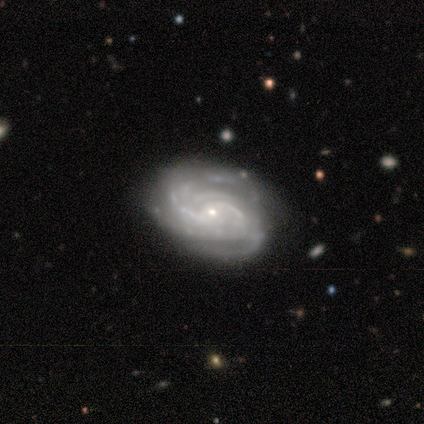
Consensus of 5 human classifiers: smooth-or-featured: featured or disk: 100% | smooth: 0% | star or artifact: 0%
  disk-edge-on: no: 100% | yes: 0%
    bar: no: 80% | weak: 20% | strong: 0%
    has-spiral-arms: yes: 100% | no: 0%
      spiral-winding: tight: 80% | medium: 20% | loose: 0%
      spiral-arm-count: 2: 80% | can't tell: 20% | 1: 0% | 3: 0% | 4: 0% | more than 4: 0%
    bulge-size: small: 80% | none: 20% | dominant: 0% | large: 0% | moderate: 0%
  merging: none: 100% | minor disturbance: 0% | major disturbance: 0% | merger: 0%